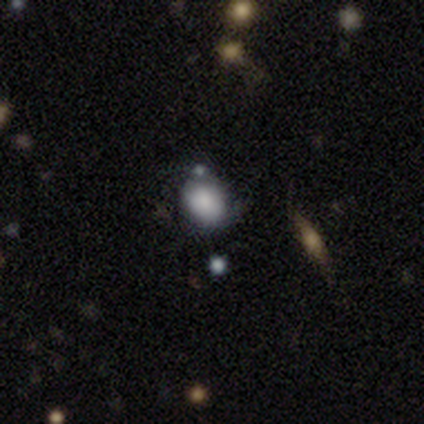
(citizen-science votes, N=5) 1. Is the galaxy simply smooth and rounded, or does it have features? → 60% smooth, 40% featured or disk, 0% star or artifact.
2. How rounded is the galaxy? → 67% round, 33% in between, 0% cigar-shaped.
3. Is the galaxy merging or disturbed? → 80% none, 20% merger, 0% minor disturbance, 0% major disturbance.